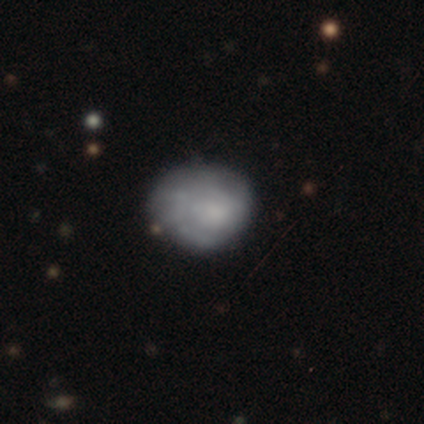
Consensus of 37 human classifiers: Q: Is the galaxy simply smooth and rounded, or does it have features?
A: smooth — 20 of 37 (54%).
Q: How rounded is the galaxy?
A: round — 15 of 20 (75%).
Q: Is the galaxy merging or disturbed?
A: none — 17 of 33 (52%).